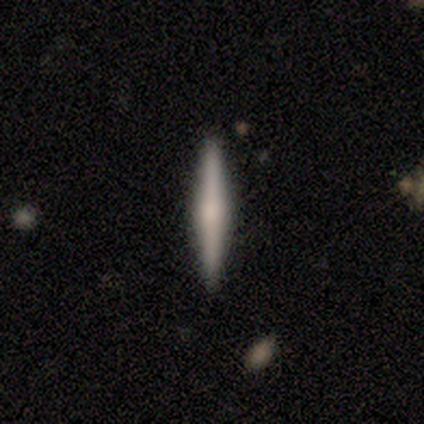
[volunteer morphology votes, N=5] Smooth or featured? 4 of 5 (80%) said featured or disk. Edge-on disk? 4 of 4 (100%) said yes. Edge-on bulge? 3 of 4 (75%) said rounded. Merging? 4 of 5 (80%) said none.